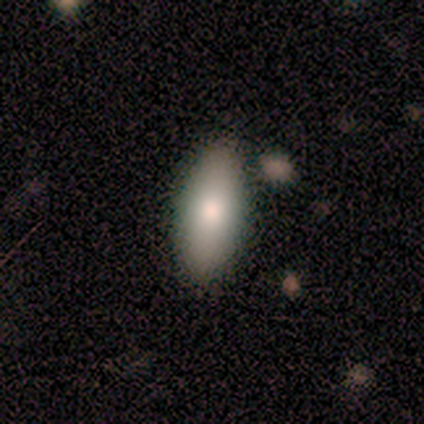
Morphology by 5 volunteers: This appears to be a featured or disk galaxy (60%) viewed edge-on (100%) with a rounded central bulge (67%). Merging: none (100%).